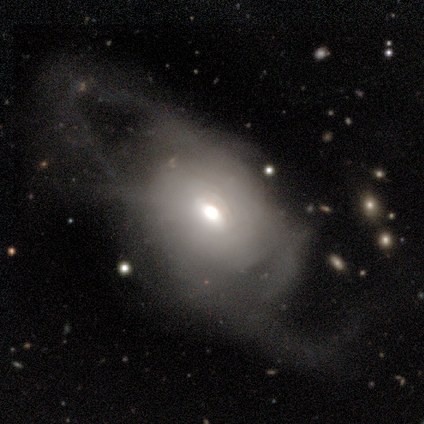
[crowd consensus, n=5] smooth-or-featured: featured or disk: 80% | smooth: 20% | star or artifact: 0%
  disk-edge-on: no: 100% | yes: 0%
    bar: no: 100% | strong: 0% | weak: 0%
    has-spiral-arms: no: 75% | yes: 25%
    bulge-size: small: 50% | large: 25% | moderate: 25% | dominant: 0% | none: 0%
  merging: major disturbance: 60% | none: 20% | minor disturbance: 20% | merger: 0%